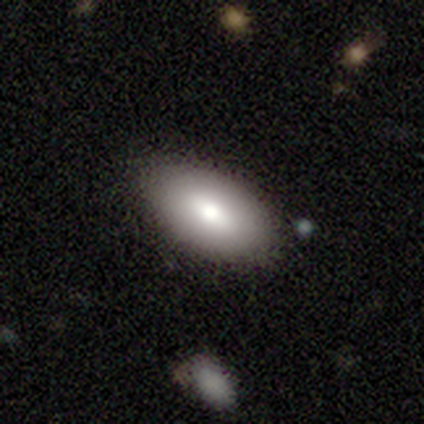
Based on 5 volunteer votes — Overall: smooth (80%). How rounded: in between (100%). Merging: none (80%).